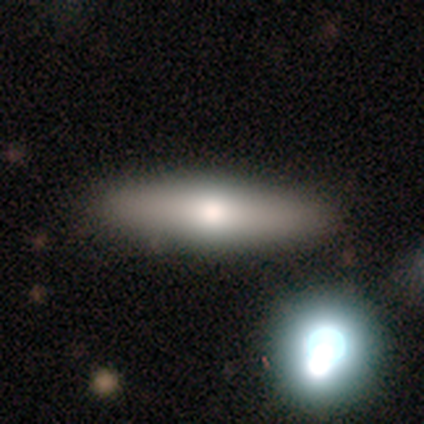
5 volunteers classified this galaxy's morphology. A smooth galaxy with no disk features (100%) that is cigar-shaped (60%).

Vote fractions:
- Smooth or featured? smooth: 100% / featured or disk: 0% / star or artifact: 0%
- How rounded? cigar-shaped: 60% / in between: 40% / round: 0%
- Merging? none: 100% / minor disturbance: 0% / major disturbance: 0% / merger: 0%